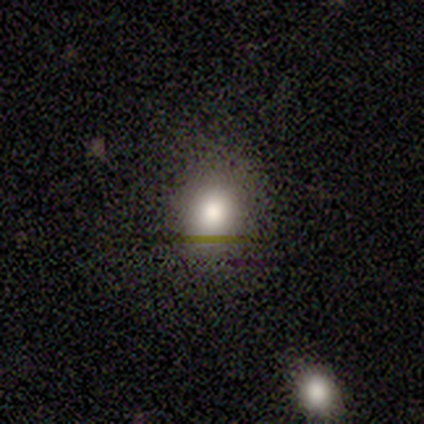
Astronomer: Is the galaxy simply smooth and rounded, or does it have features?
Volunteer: smooth — 100%.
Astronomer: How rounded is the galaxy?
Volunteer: round — 80%.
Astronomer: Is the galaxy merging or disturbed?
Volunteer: none — 100%.